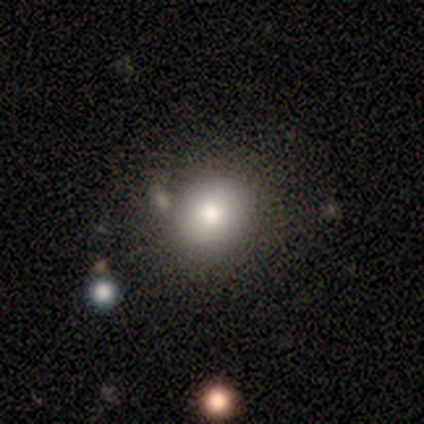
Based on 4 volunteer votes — Overall: smooth (50%, tied with featured or disk). How rounded: round (50%, tied with cigar-shaped). Merging: none (50%; minor disturbance 25%).